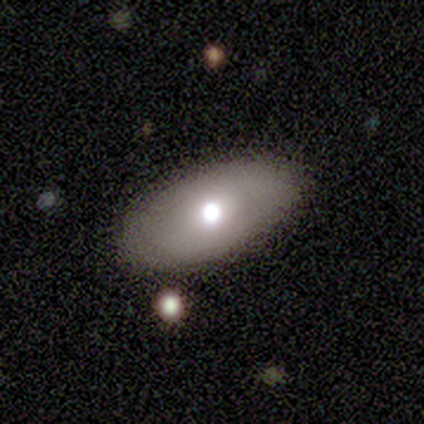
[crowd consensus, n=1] A smooth galaxy with no disk features (100%) that is in between round and cigar-shaped (100%). Merging: none (100%).